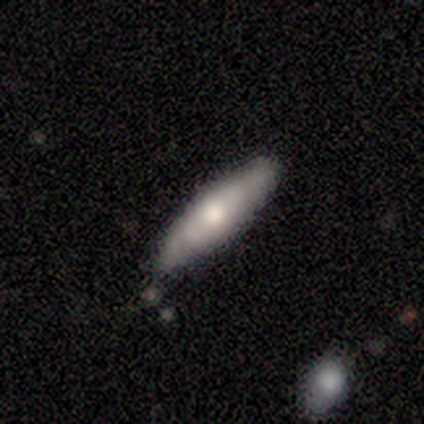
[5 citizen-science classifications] A smooth galaxy with no disk features (80%) that is in between round and cigar-shaped (50%, tied with cigar-shaped). Merging: none (60%).